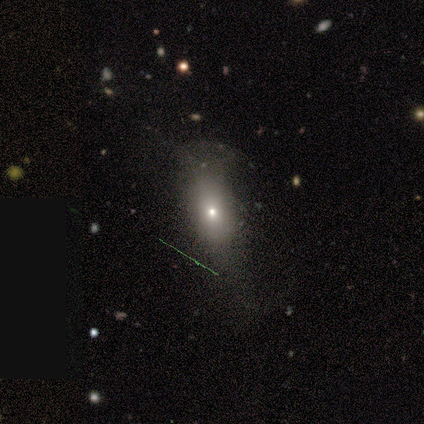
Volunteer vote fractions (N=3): This appears to be a star or artifact, not a galaxy (67%).